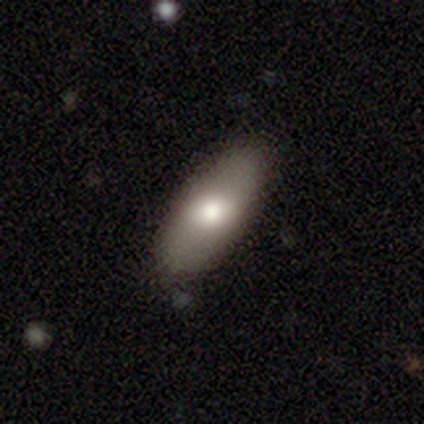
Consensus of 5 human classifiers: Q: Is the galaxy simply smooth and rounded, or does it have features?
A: smooth — 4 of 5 (80%).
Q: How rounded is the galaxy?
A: in between — 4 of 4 (100%).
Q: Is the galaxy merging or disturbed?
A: none — 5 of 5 (100%).